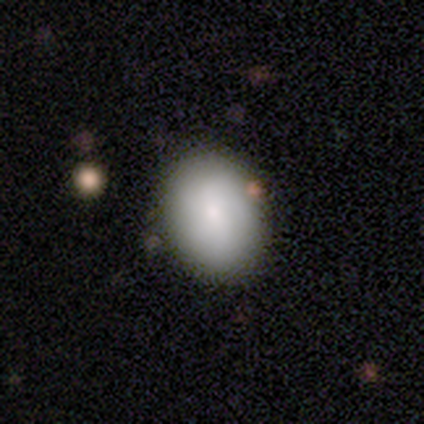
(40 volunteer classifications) Smooth or featured?
  - smooth: 88% *
  - featured or disk: 12%
  - star or artifact: 0%
How rounded?
  - in between: 71% *
  - round: 26%
  - cigar-shaped: 3%
Merging?
  - none: 90% *
  - merger: 5%
  - minor disturbance: 2%
  - major disturbance: 2%